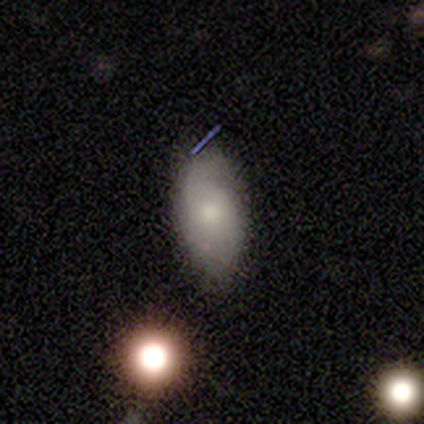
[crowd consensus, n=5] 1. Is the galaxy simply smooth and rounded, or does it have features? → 80% smooth, 20% featured or disk, 0% star or artifact.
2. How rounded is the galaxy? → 100% in between, 0% round, 0% cigar-shaped.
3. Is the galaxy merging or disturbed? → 100% none, 0% minor disturbance, 0% major disturbance, 0% merger.